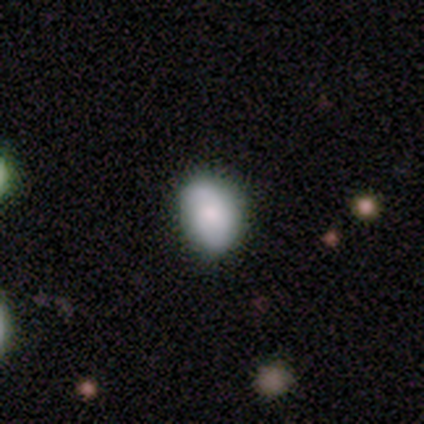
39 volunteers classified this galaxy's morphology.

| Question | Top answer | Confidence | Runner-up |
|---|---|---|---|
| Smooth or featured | smooth | 79% | featured or disk (21%) |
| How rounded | in between | 68% | round (32%) |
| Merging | none | 82% | minor disturbance (8%) |